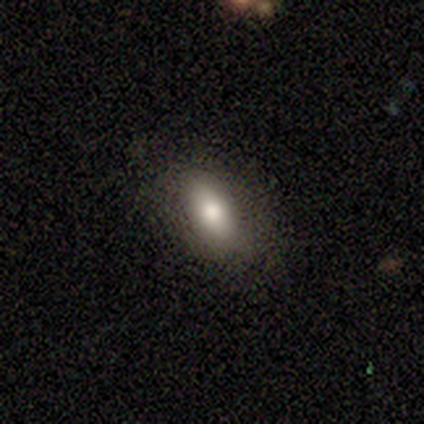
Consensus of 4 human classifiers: Volunteers were most divided on "merging" (2-way tie): none: 50%, minor disturbance: 50%, major disturbance: 0%, merger: 0%. More confident: how rounded — in between (100%); smooth or featured — smooth (75%).